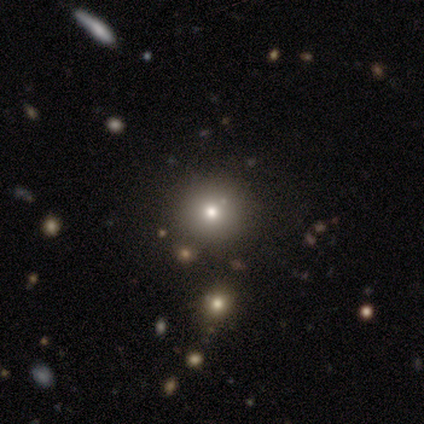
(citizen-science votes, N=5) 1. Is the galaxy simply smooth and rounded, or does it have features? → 100% smooth, 0% featured or disk, 0% star or artifact.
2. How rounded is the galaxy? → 100% round, 0% in between, 0% cigar-shaped.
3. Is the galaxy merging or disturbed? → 80% none, 20% minor disturbance, 0% major disturbance, 0% merger.